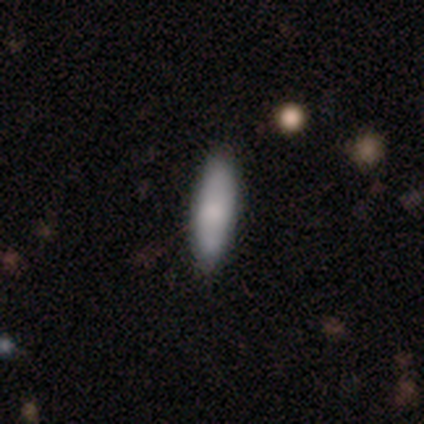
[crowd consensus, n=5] smooth 100%, featured or disk 0%, star or artifact 0%. Down the decision tree: how rounded — cigar-shaped (100%); merging — none (60%).